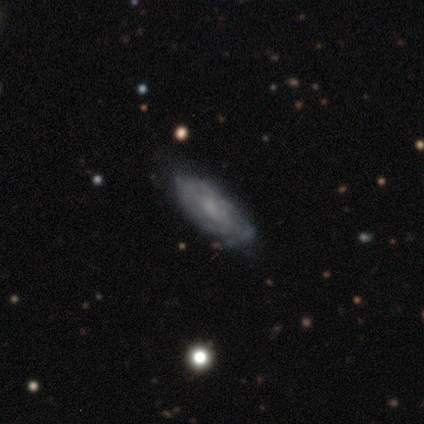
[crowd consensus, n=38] Overall: featured or disk (68%; smooth 29%). Edge-on disk: no (85%). Bar: no (73%). Spiral arms: yes (64%; no 36%). Spiral arm count: can't tell (57%; 1 21%). Spiral winding: tight (64%; medium 29%). Bulge size: small (55%; none 32%). Merging: none (43%; minor disturbance 16%).